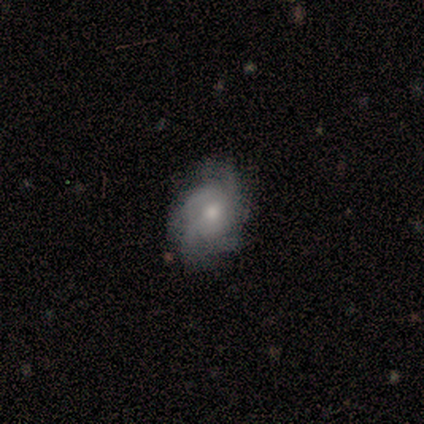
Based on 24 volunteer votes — Morphology: type=featured or disk (71%); edge-on=no (100%); bar=no (94%); spiral arms=yes (82%); winding=medium (71%); arm count=can't tell (50%); bulge=moderate (59%); merging=none (50%).